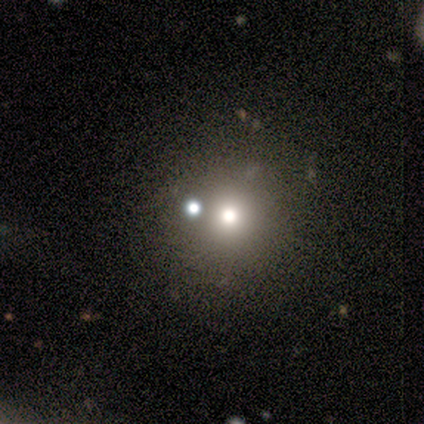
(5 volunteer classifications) Smooth or featured: smooth — 40% (tied with star or artifact — 40%)
How rounded: round — 100%
Merging: none — 67% (merger — 33%)